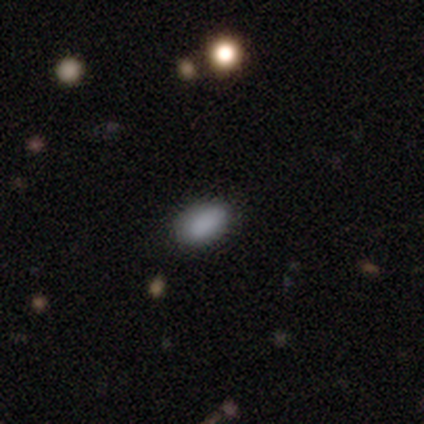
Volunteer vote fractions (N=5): Smooth or featured? smooth (100%)
How rounded? in between (100%)
Merging? none (100%)